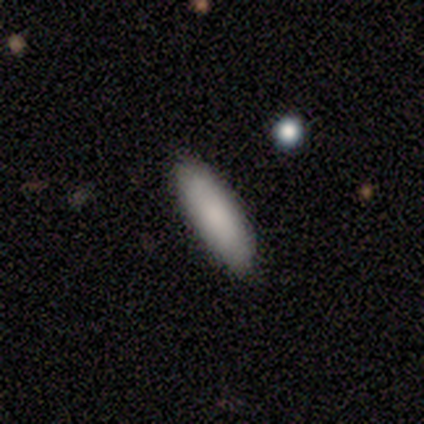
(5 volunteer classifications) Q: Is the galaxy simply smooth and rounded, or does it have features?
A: smooth — 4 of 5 (80%).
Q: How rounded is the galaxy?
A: in between — 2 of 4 (50%, tied with cigar-shaped).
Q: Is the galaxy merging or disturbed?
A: none — 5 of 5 (100%).